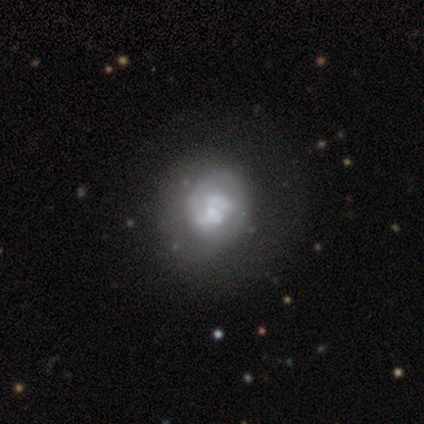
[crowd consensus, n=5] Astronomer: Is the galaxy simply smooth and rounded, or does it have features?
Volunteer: featured or disk — 80%.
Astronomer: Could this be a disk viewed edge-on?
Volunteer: no — 100%.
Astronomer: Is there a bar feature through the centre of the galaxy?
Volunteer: weak — 50%, tied with no at 50%.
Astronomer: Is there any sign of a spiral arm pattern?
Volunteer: yes — 50%, tied with no at 50%.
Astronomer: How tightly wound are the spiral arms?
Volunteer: tight — 50%, tied with medium at 50%.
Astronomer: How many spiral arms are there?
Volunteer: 1 — 50%, tied with 2 at 50%.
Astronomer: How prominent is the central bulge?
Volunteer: moderate — 50%, tied with small at 50%.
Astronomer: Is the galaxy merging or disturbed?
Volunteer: minor disturbance — 60%.